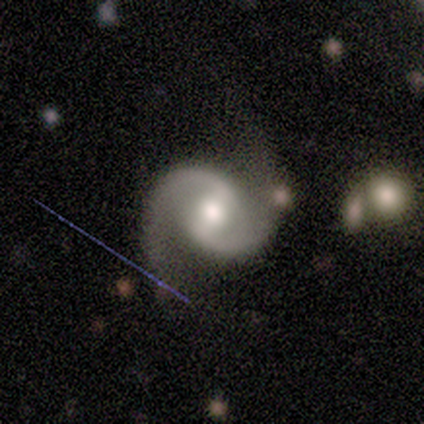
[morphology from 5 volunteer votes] Smooth or featured? featured or disk (100%)
Edge-on disk? no (80%)
Bar? strong (75%)
Spiral arms? yes (100%)
Spiral winding? medium (50%, tied with loose)
Spiral arm count? 2 (100%)
Bulge size? moderate (75%)
Merging? none (40%, tied with major disturbance)